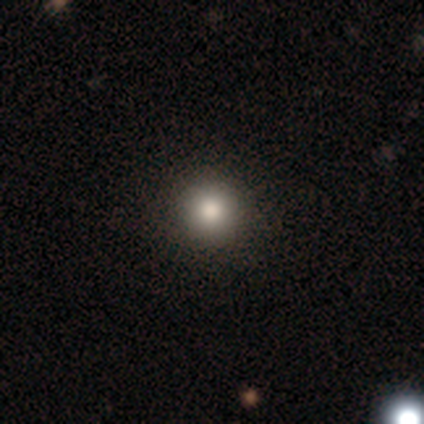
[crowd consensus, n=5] A smooth galaxy with no disk features (60%) that is round (100%). Merging: none (100%).